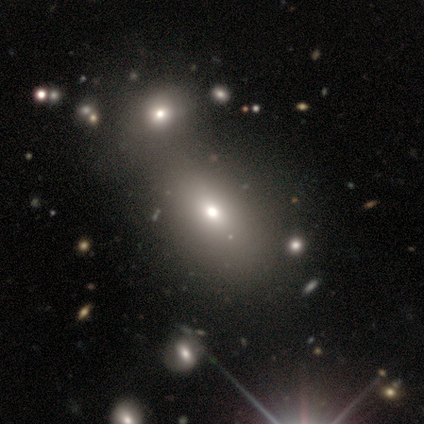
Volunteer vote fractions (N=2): Consensus on every question: smooth or featured — star or artifact (100%).